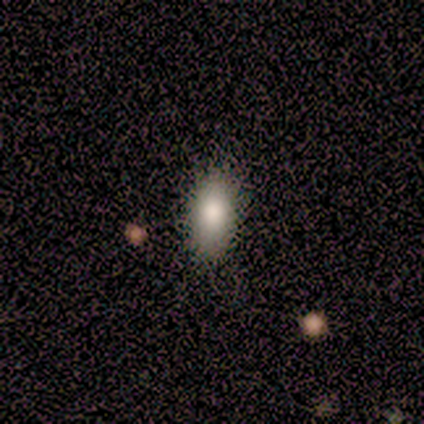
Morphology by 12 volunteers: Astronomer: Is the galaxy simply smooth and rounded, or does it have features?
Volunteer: smooth — 92%.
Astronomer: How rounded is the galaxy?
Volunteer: in between — 82%.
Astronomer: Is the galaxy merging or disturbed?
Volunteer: none — 83%.